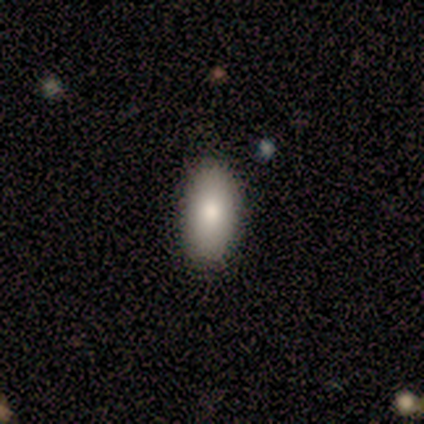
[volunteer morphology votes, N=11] Overall: smooth (91%). How rounded: in between (100%). Merging: none (80%).